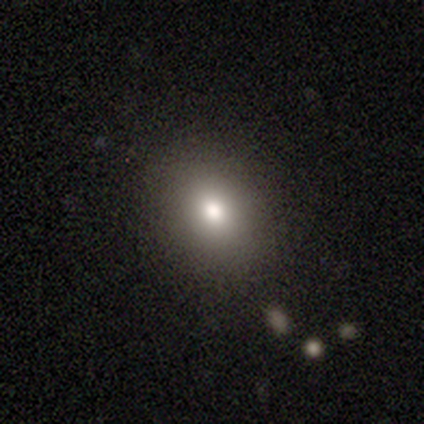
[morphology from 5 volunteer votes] A smooth galaxy with no disk features (100%) that is in between round and cigar-shaped (60%). Merging: none (60%).